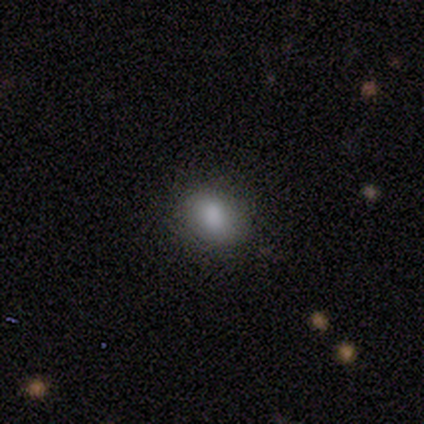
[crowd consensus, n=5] Smooth or featured?
  - smooth: 80% *
  - featured or disk: 20%
  - star or artifact: 0%
How rounded?
  - round: 50% * (tied)
  - in between: 50% * (tied)
  - cigar-shaped: 0%
Merging?
  - none: 80% *
  - minor disturbance: 20%
  - major disturbance: 0%
  - merger: 0%